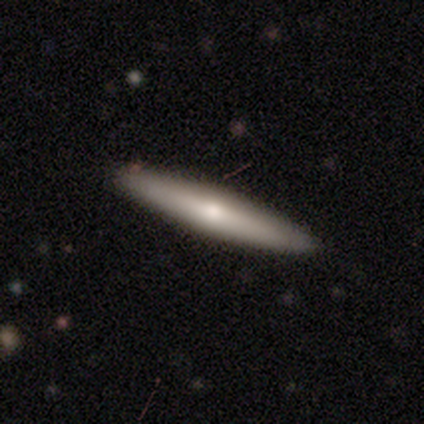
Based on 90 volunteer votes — Overall: smooth (53%; featured or disk 46%). How rounded: cigar-shaped (92%). Merging: none (90%).